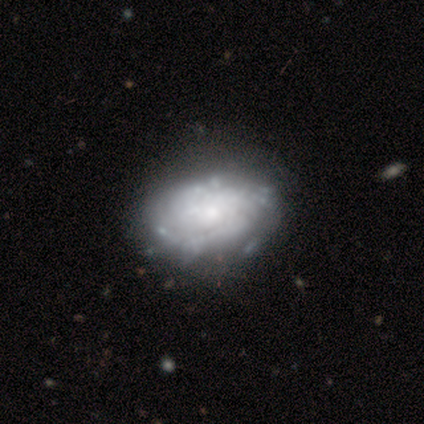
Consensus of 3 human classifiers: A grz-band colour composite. It shows a featured or disk galaxy (100%) with a weak bar (67%), 2 (50%, tied with 3) medium (100%) spiral arms (67%) and a small central bulge (67%). Merging: none (67%).